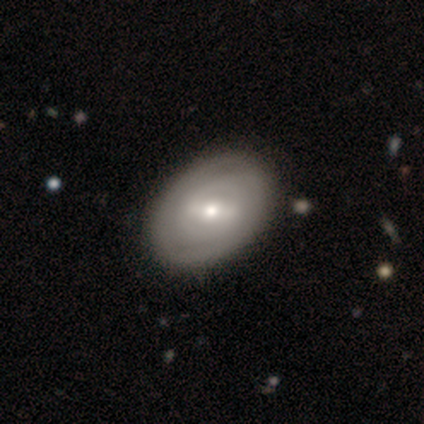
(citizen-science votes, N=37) A featured or disk galaxy (73%) with a strong bar (56%), 2 (57%) tight (71%) spiral arms (78%) and a small central bulge (59%). Merging: none (60%).